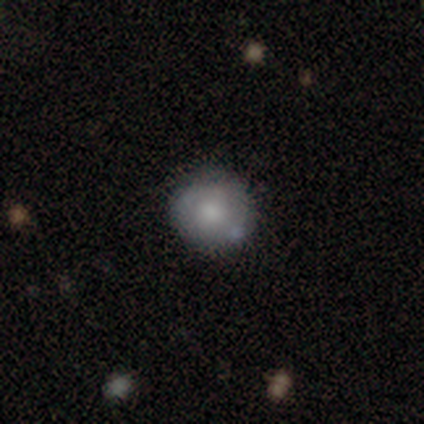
Overall: smooth (75%). How rounded: round (100%). Merging: none (100%).